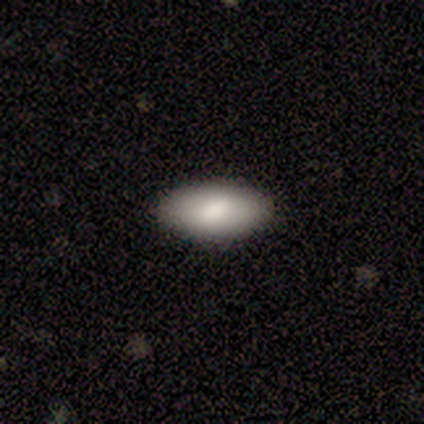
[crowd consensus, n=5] Consensus on every question: smooth or featured — smooth (100%); how rounded — in between (100%); merging — none (100%).